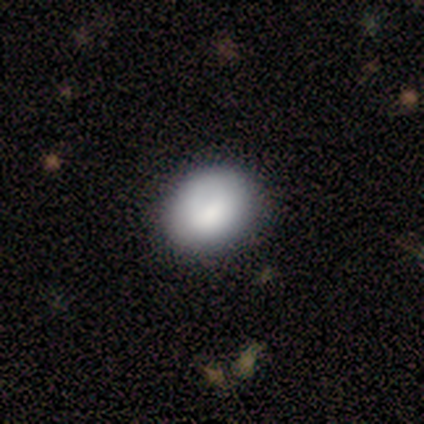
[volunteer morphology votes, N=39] Smooth or featured? smooth (85%)
How rounded? in between (55%)
Merging? none (76%)